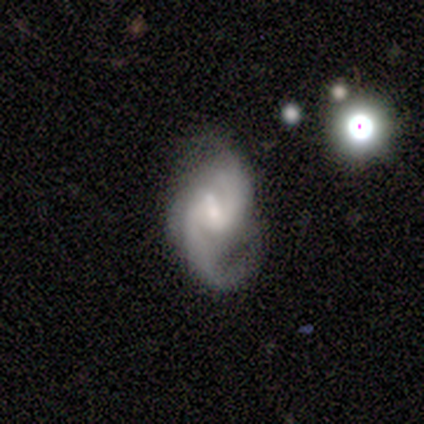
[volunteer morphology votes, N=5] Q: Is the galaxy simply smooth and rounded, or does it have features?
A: featured or disk — 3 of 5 (60%).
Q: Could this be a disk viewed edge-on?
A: no — 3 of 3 (100%).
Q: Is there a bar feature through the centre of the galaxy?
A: weak — 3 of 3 (100%).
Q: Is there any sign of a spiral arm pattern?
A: yes — 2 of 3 (67%).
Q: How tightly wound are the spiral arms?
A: medium — 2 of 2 (100%).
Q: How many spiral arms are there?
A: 2 — 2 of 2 (100%).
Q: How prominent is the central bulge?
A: small — 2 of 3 (67%).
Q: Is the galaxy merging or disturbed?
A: none — 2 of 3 (67%).